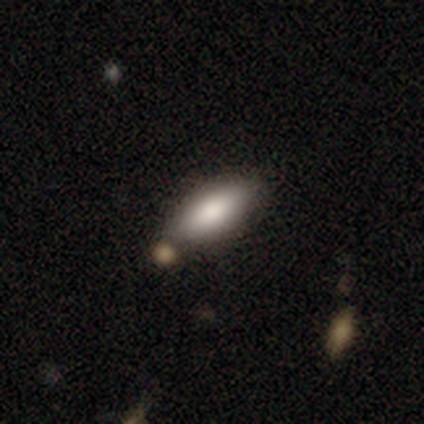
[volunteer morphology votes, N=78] A smooth galaxy with no disk features (88%) that is in between round and cigar-shaped (81%). Merging: none (41%).